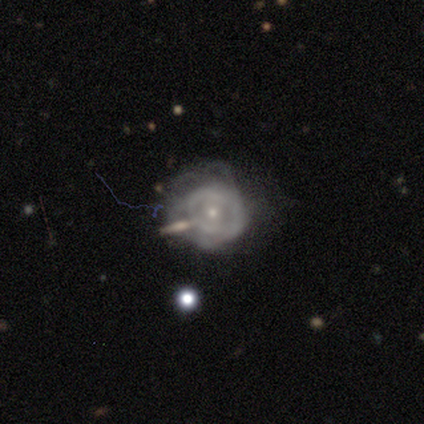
Smooth or featured? 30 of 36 (83%) said featured or disk. Edge-on disk? 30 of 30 (100%) said no. Bar? 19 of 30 (63%) said no. Spiral arms? 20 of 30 (67%) said yes. Spiral winding? 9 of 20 (45%, tied with medium) said tight. Spiral arm count? 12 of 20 (60%) said can't tell. Bulge size? 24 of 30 (80%) said small. Merging? 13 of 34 (38%) said major disturbance.